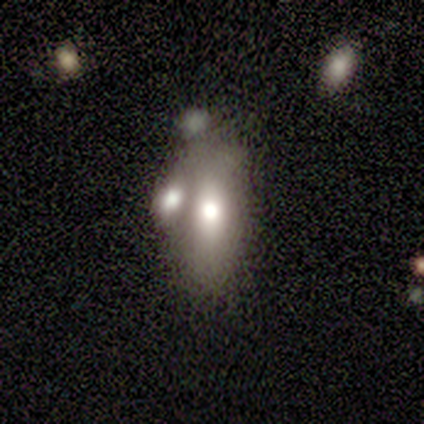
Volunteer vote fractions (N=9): Overall: smooth (67%; featured or disk 33%). How rounded: in between (83%). Merging: none (44%, tied with merger).